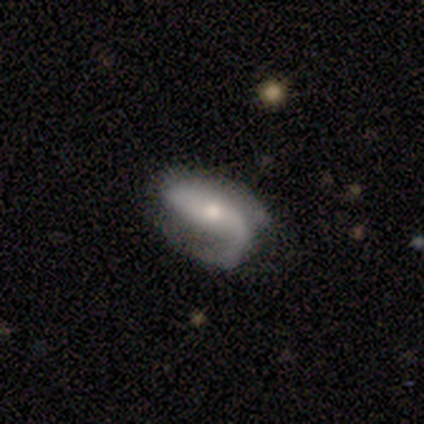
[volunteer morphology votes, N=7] featured or disk 57%, smooth 43%, star or artifact 0%. Down the decision tree: edge-on disk — no (100%); bar — no (50%); spiral arms — yes (100%); spiral arm count — 1 (50%, tied with 2); spiral winding — loose (75%); bulge size — moderate (50%, tied with small); merging — none (43%, tied with minor disturbance).